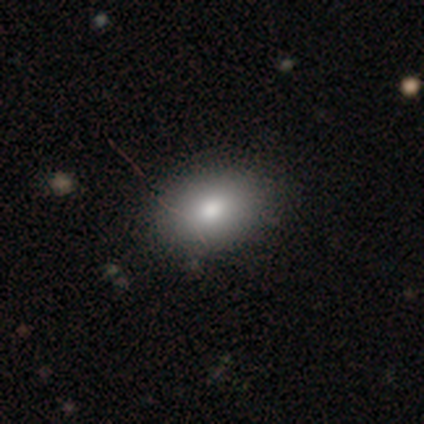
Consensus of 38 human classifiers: A smooth galaxy with no disk features (82%) that is in between round and cigar-shaped (77%).

Vote fractions:
- Smooth or featured? smooth: 82% / featured or disk: 16% / star or artifact: 3%
- How rounded? in between: 77% / round: 23% / cigar-shaped: 0%
- Merging? none: 59% / minor disturbance: 5% / major disturbance: 0% / merger: 0%